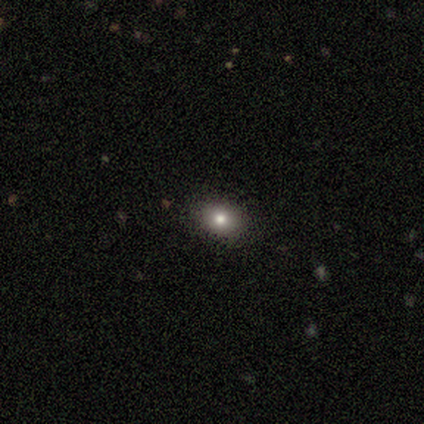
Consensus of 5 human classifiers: Smooth or featured? 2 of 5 (40%, tied with featured or disk) said smooth. How rounded? 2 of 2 (100%) said round. Merging? 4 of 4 (100%) said none.